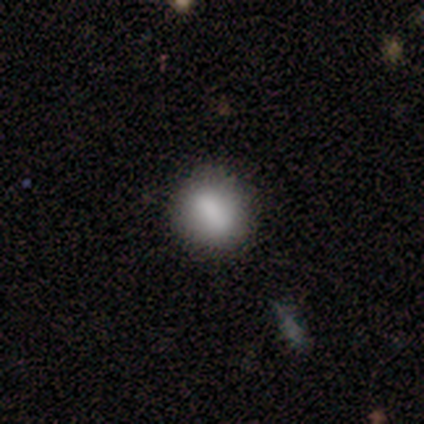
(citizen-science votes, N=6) Smooth or featured?
  - smooth: 100% *
  - featured or disk: 0%
  - star or artifact: 0%
How rounded?
  - round: 83% *
  - in between: 17%
  - cigar-shaped: 0%
Merging?
  - none: 83% *
  - minor disturbance: 17%
  - major disturbance: 0%
  - merger: 0%